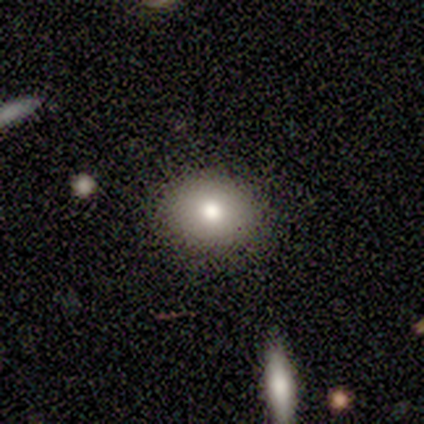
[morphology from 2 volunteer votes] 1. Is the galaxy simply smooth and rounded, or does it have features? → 50% smooth (tied), 50% star or artifact (tied), 0% featured or disk.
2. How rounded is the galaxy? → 100% round, 0% in between, 0% cigar-shaped.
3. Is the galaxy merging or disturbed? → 100% none, 0% minor disturbance, 0% major disturbance, 0% merger.